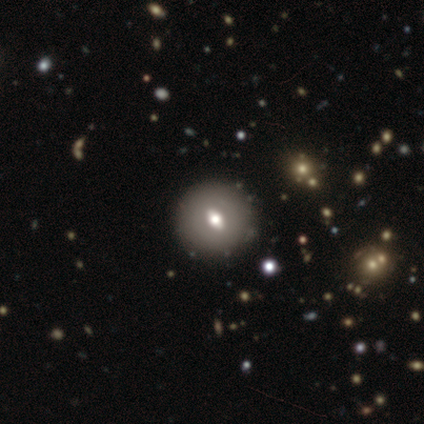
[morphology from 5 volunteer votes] A smooth galaxy with no disk features (60%) that is round (67%). Merging: none (60%).